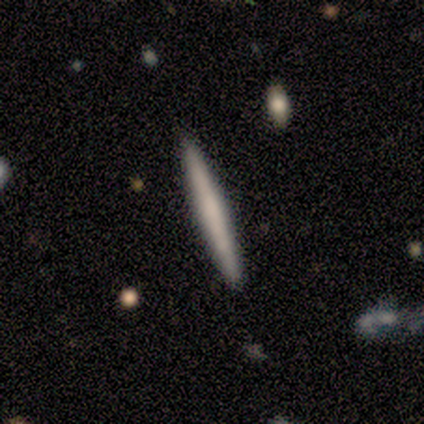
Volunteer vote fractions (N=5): smooth_or_featured: featured or disk (p=0.60) [alt: smooth p=0.40]
disk_edge_on: yes (p=1.00)
edge_on_bulge: none (p=0.67) [alt: rounded p=0.33]
merging: none (p=1.00)